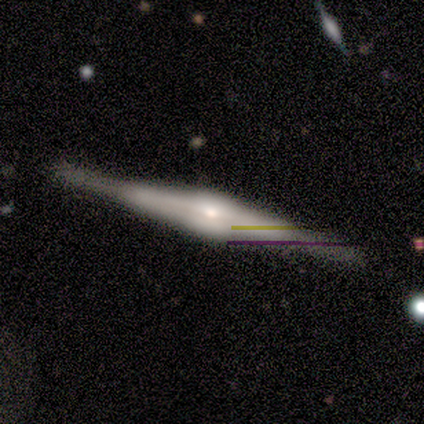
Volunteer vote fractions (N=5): This is clearly a featured or disk galaxy (80%). It is clearly viewed edge-on (100%). Edge-on bulge: likely rounded (75%). Merging: clearly none (80%).